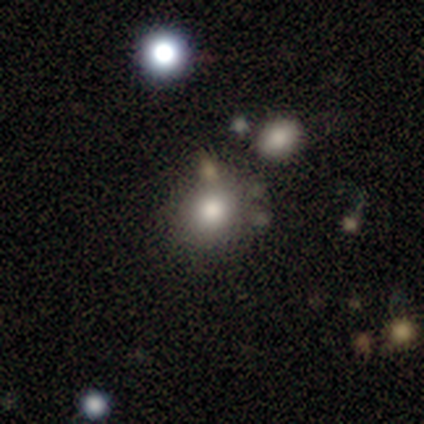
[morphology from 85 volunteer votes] smooth 69%, star or artifact 21%, featured or disk 9%. Down the decision tree: how rounded — round (81%); merging — none (72%).